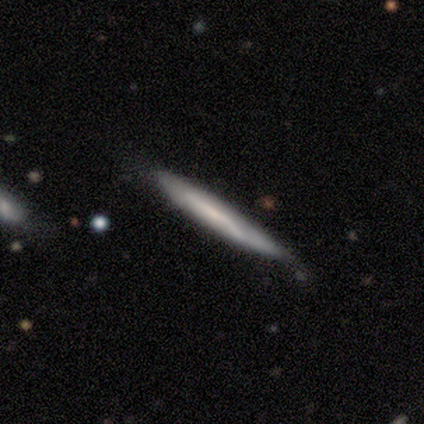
Morphology: type=featured or disk (60%); edge-on=yes (100%); edge-on bulge=none (67%); merging=none (80%).